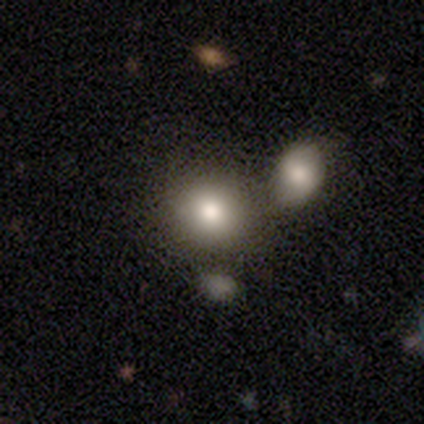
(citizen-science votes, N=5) This appears to be a smooth galaxy with no disk features (80%) that is round (50%, tied with in between). Merging: none (80%).